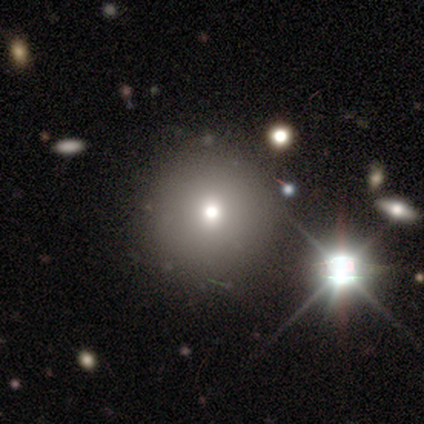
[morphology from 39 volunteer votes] Smooth or featured: smooth — 62% (star or artifact — 28%)
How rounded: round — 96% (in between — 4%)
Merging: none — 96% (minor disturbance — 4%)